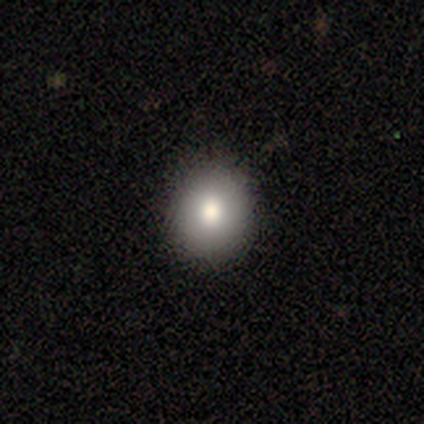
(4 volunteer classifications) A smooth galaxy with no disk features (100%) that is round (75%).

Vote fractions:
- Smooth or featured? smooth: 100% / featured or disk: 0% / star or artifact: 0%
- How rounded? round: 75% / in between: 25% / cigar-shaped: 0%
- Merging? none: 75% / minor disturbance: 25% / major disturbance: 0% / merger: 0%